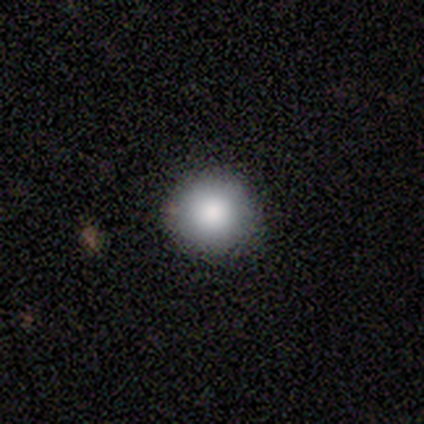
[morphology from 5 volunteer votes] smooth_or_featured: smooth (p=0.80) [alt: featured or disk p=0.20]
how_rounded: round (p=1.00)
merging: none (p=0.80) [alt: minor disturbance p=0.20]